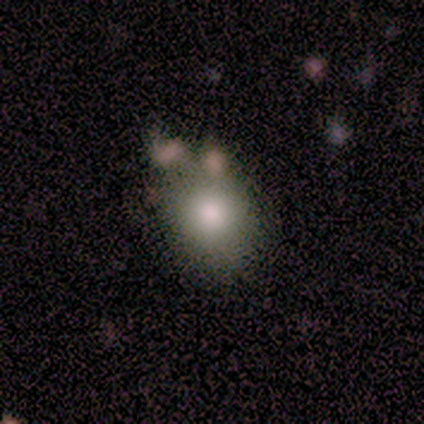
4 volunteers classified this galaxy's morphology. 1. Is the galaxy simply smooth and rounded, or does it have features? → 75% smooth, 25% featured or disk, 0% star or artifact.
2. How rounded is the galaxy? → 67% in between, 33% round, 0% cigar-shaped.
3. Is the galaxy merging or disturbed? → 75% none, 25% merger, 0% minor disturbance, 0% major disturbance.